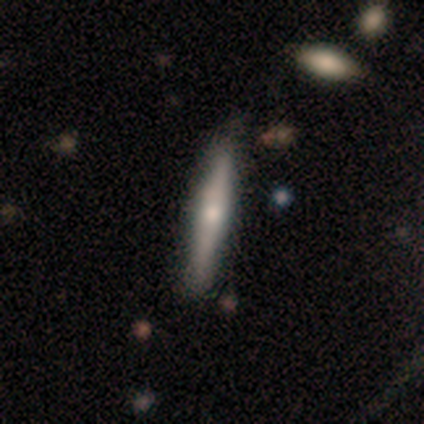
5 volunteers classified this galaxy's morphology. type=featured or disk (100%); edge-on=yes (100%); edge-on bulge=rounded (80%); merging=none (100%).